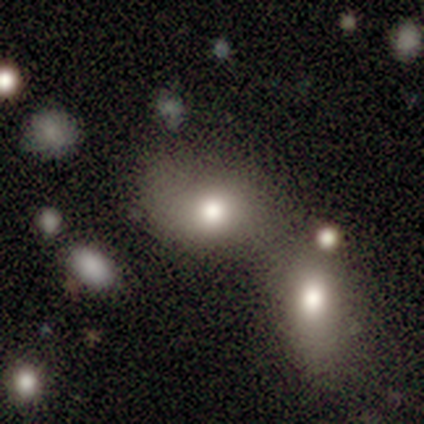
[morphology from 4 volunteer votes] This appears to be a smooth galaxy with no disk features (75%) that is in between round and cigar-shaped (67%). Merging: merger (67%).